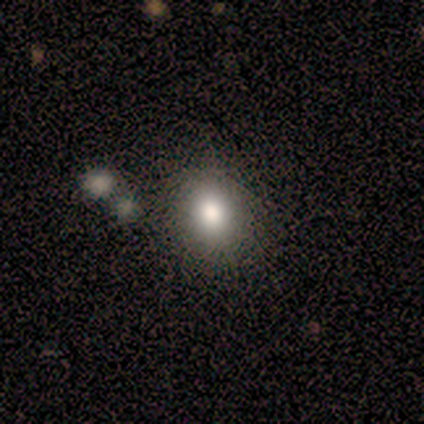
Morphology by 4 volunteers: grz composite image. It shows a smooth galaxy with no disk features (100%) that is round (50%, tied with in between). Merging: none (100%).